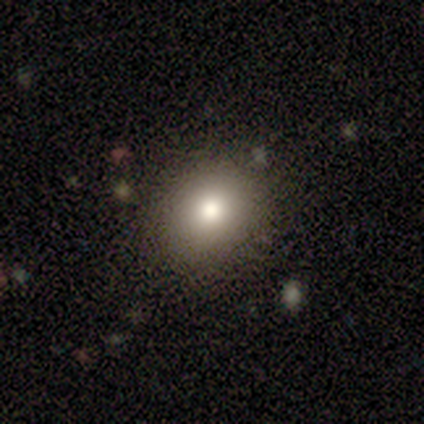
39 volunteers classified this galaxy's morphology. type=smooth (72%); roundness=round (57%); merging=none (82%).